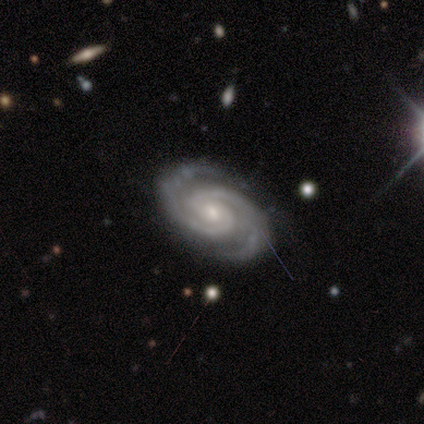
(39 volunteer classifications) A featured or disk galaxy (97%) with a weak bar (45%, tied with no), 2 (89%) tight (68%) spiral arms (100%) and a small central bulge (55%).

Vote fractions:
- Smooth or featured? featured or disk: 97% / star or artifact: 3% / smooth: 0%
- Edge-on disk? no: 100% / yes: 0%
- Bar? weak: 45% (tied) / no: 45% (tied) / strong: 11%
- Spiral arms? yes: 100% / no: 0%
- Spiral winding? tight: 68% / medium: 29% / loose: 3%
- Spiral arm count? 2: 89% / 3: 8% / more than 4: 3% / 1: 0% / 4: 0% / can't tell: 0%
- Bulge size? small: 55% / moderate: 39% / large: 5% / dominant: 0% / none: 0%
- Merging? none: 89% / major disturbance: 8% / minor disturbance: 3% / merger: 0%